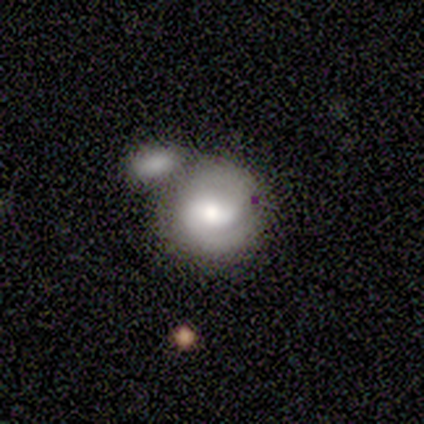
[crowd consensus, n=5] featured or disk 80%, smooth 20%, star or artifact 0%. Down the decision tree: edge-on disk — no (100%); bar — weak (50%); spiral arms — yes (75%); spiral arm count — 2 (100%); spiral winding — tight (33%, tied with medium and loose); bulge size — moderate (50%); merging — none (60%).